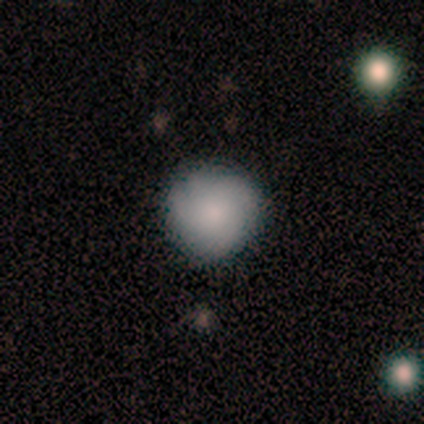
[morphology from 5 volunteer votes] A smooth galaxy with no disk features (100%) that is round (100%).

Vote fractions:
- Smooth or featured? smooth: 100% / featured or disk: 0% / star or artifact: 0%
- How rounded? round: 100% / in between: 0% / cigar-shaped: 0%
- Merging? none: 100% / minor disturbance: 0% / major disturbance: 0% / merger: 0%